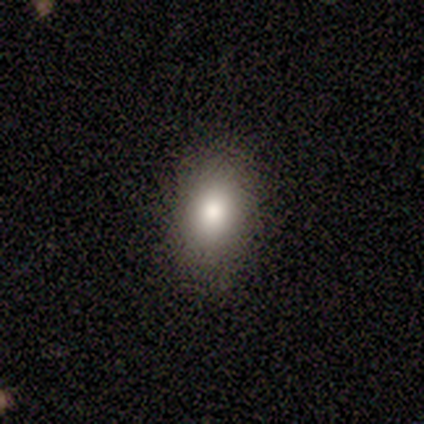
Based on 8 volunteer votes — This is clearly a smooth galaxy (100%). How rounded: clearly in between (100%). Merging: likely none (75%).